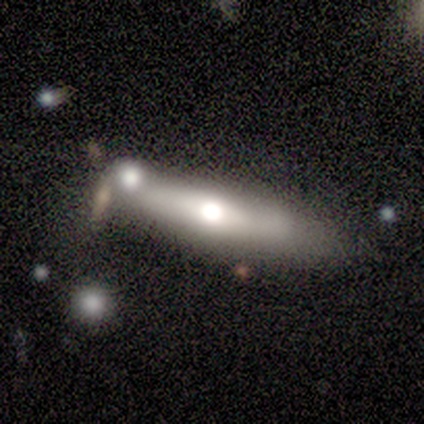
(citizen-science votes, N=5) featured or disk 80%, smooth 20%, star or artifact 0%. Down the decision tree: edge-on disk — yes (75%); edge-on bulge — rounded (100%); merging — minor disturbance (60%).